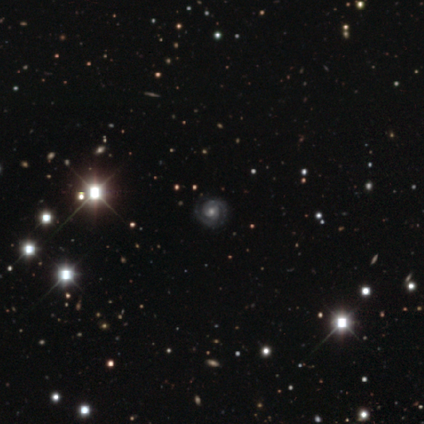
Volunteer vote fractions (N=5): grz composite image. It shows a featured or disk galaxy (100%) with a weak bar (60%), 2 (60%) tight (80%) spiral arms (100%) and a moderate central bulge (60%). Merging: none (100%).